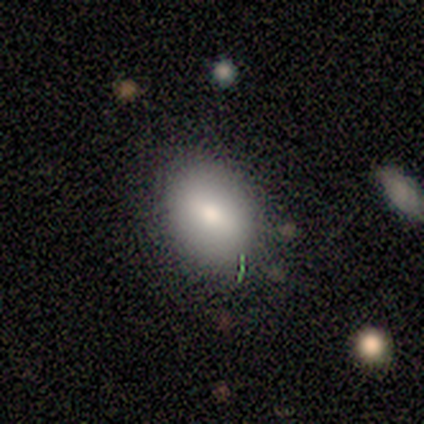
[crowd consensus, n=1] A smooth galaxy with no disk features (100%) that is in between round and cigar-shaped (100%).

Vote fractions:
- Smooth or featured? smooth: 100% / featured or disk: 0% / star or artifact: 0%
- How rounded? in between: 100% / round: 0% / cigar-shaped: 0%
- Merging? none: 100% / minor disturbance: 0% / major disturbance: 0% / merger: 0%